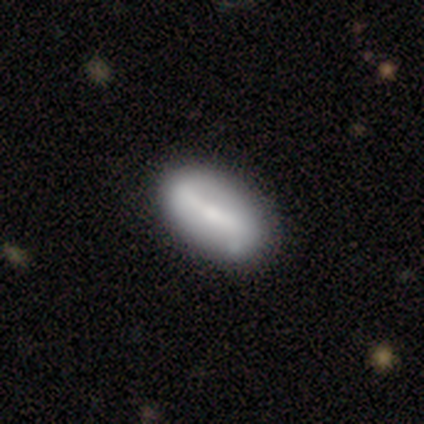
Overall: smooth (50%, tied with featured or disk). How rounded: in between (100%). Merging: none (100%).